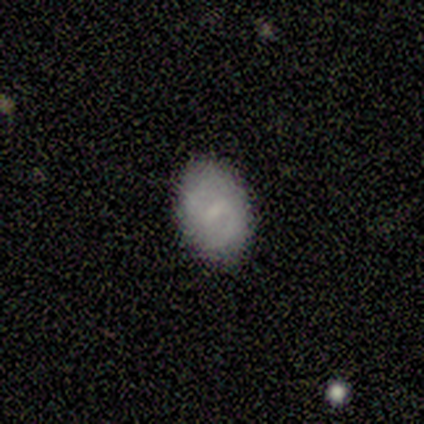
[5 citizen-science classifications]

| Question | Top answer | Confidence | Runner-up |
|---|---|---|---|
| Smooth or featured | smooth | 40% | tied: featured or disk (40%) |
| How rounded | in between | 100% | — |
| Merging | none | 100% | — |